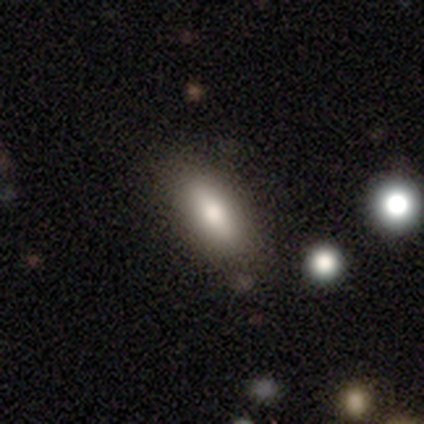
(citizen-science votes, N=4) Q: Smooth or featured?
A: smooth (50%); tied with: featured or disk (50%)
Q: How rounded?
A: in between (100%)
Q: Merging?
A: none (50%); runner-up: minor disturbance (25%)